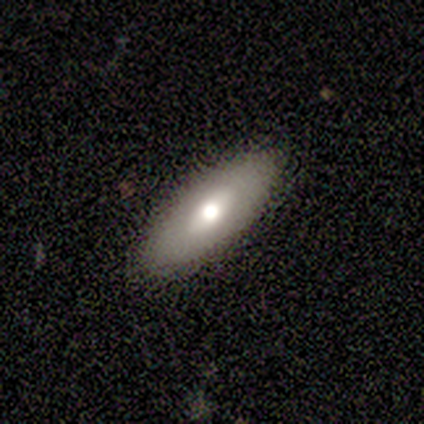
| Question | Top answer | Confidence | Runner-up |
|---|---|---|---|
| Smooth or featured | smooth | 67% | featured or disk (33%) |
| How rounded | in between | 50% | tied: cigar-shaped (50%) |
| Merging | none | 100% | — |